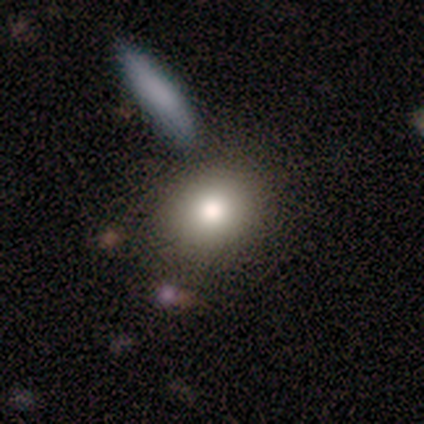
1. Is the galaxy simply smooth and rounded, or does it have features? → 100% smooth, 0% featured or disk, 0% star or artifact.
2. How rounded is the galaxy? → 80% round, 20% in between, 0% cigar-shaped.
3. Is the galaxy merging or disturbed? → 100% none, 0% minor disturbance, 0% major disturbance, 0% merger.